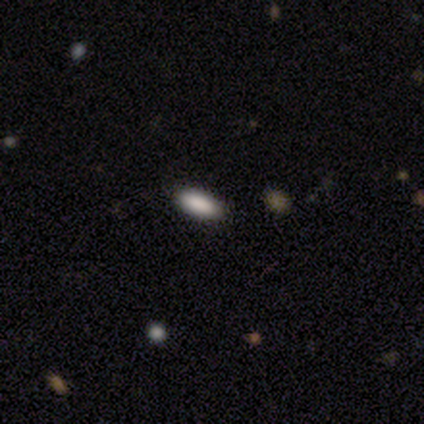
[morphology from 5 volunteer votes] This is clearly a smooth galaxy (100%). How rounded: clearly in between (80%). Merging: likely none (60%).